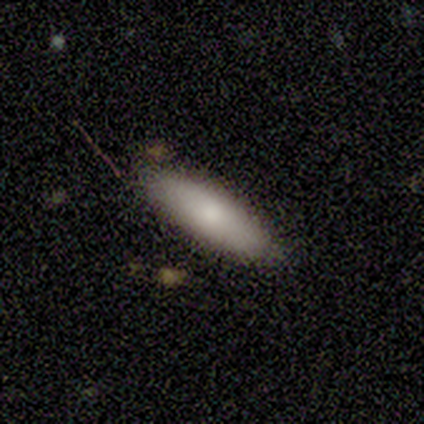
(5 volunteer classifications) Overall: smooth (80%). How rounded: cigar-shaped (75%). Merging: minor disturbance (60%; none 40%).